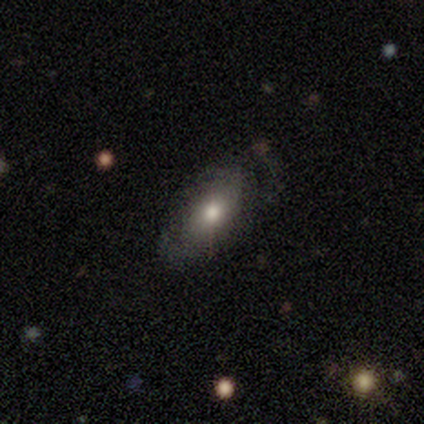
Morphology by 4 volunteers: smooth-or-featured: smooth: 50% | featured or disk: 25% | star or artifact: 25%
  how-rounded: cigar-shaped: 100% | round: 0% | in between: 0%
  merging: none: 67% | minor disturbance: 33% | major disturbance: 0% | merger: 0%